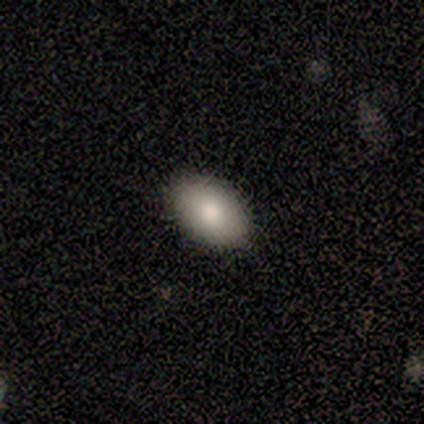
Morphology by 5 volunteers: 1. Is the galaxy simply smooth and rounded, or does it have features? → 80% smooth, 20% star or artifact, 0% featured or disk.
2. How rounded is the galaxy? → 100% in between, 0% round, 0% cigar-shaped.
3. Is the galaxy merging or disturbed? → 50% none (tied), 50% minor disturbance (tied), 0% major disturbance, 0% merger.